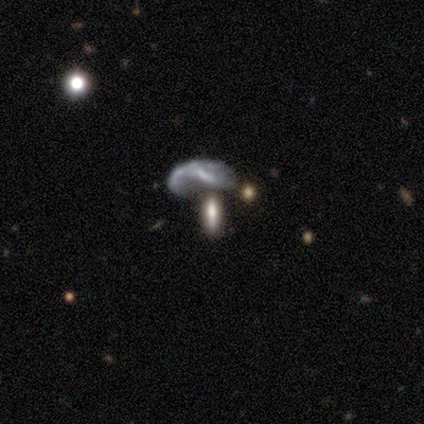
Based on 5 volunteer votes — smooth-or-featured: smooth: 40% (tied) | featured or disk: 40% (tied) | star or artifact: 20%
  how-rounded: in between: 100% | round: 0% | cigar-shaped: 0%
  merging: merger: 75% | none: 25% | minor disturbance: 0% | major disturbance: 0%